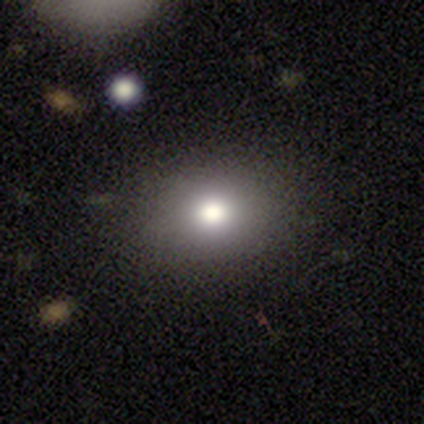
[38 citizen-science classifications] Smooth or featured: smooth — 66% (star or artifact — 18%)
How rounded: in between — 60% (round — 40%)
Merging: none — 84% (minor disturbance — 10%)